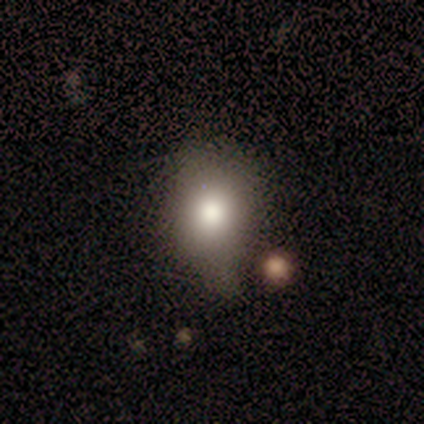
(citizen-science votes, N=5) smooth 60%, featured or disk 20%, star or artifact 20%. Down the decision tree: how rounded — in between (67%); merging — minor disturbance (75%).